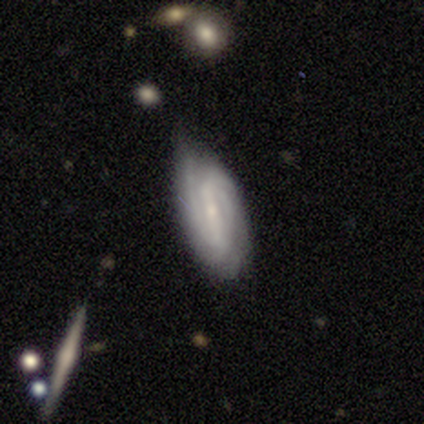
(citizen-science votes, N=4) featured or disk 100%, smooth 0%, star or artifact 0%. Down the decision tree: edge-on disk — no (75%); bar — strong (67%); spiral arms — yes (100%); spiral arm count — 2 (100%); spiral winding — tight (67%); bulge size — small (100%); merging — none (75%).